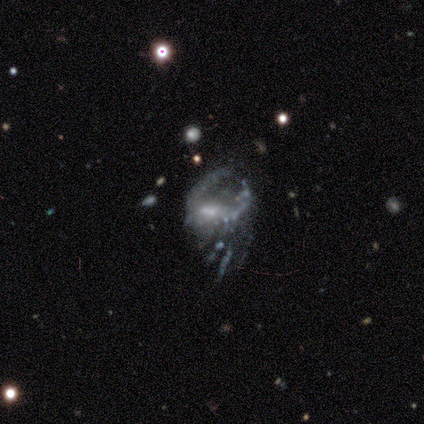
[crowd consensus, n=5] Smooth or featured: featured or disk — 80% (star or artifact — 20%)
Edge-on disk: no — 100%
Bar: no — 100%
Spiral arms: no — 100%
Bulge size: small — 50% (moderate — 25%)
Merging: merger — 50% (none — 25%)